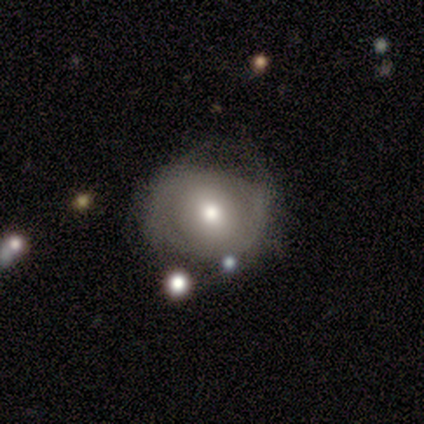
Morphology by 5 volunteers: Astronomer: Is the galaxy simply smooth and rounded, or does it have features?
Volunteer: smooth — 60% (runner-up: featured or disk, 40%).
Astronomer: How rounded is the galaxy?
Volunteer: round — 67%.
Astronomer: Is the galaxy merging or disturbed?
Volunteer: none — 40%, tied with minor disturbance at 40%.